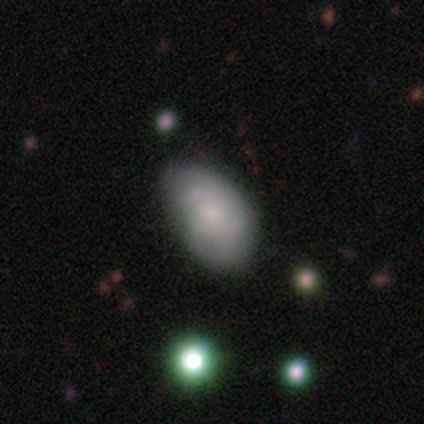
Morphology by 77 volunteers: Smooth or featured? 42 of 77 (55%) said smooth. How rounded? 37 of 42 (88%) said in between. Merging? 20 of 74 (27%) said none.